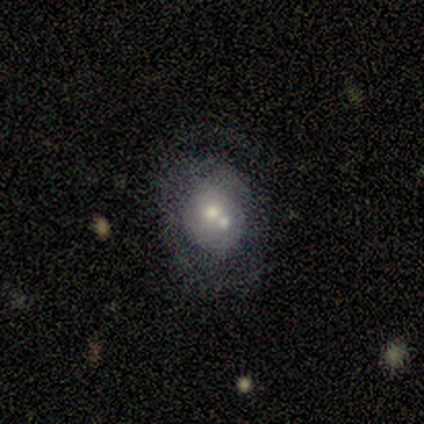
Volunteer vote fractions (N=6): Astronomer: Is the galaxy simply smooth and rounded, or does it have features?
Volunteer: smooth — 67%.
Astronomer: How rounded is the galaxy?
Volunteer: round — 50%, tied with in between at 50%.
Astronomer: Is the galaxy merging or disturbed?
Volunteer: merger — 50%.